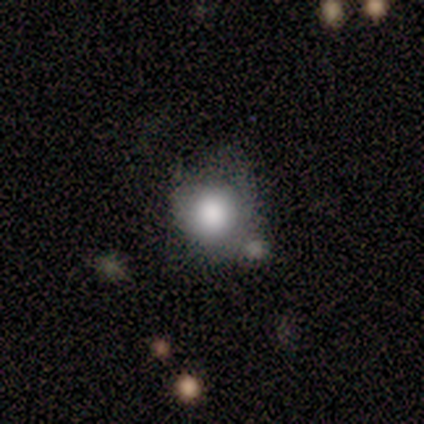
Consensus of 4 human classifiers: Morphology: type=smooth (100%); roundness=round (75%); merging=none (100%).